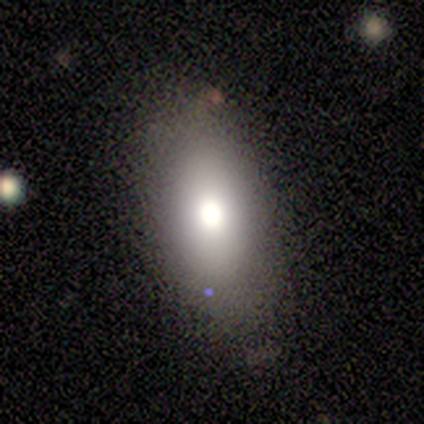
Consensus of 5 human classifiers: smooth-or-featured: smooth: 80% | featured or disk: 20% | star or artifact: 0%
  how-rounded: in between: 100% | round: 0% | cigar-shaped: 0%
  merging: none: 80% | major disturbance: 20% | minor disturbance: 0% | merger: 0%